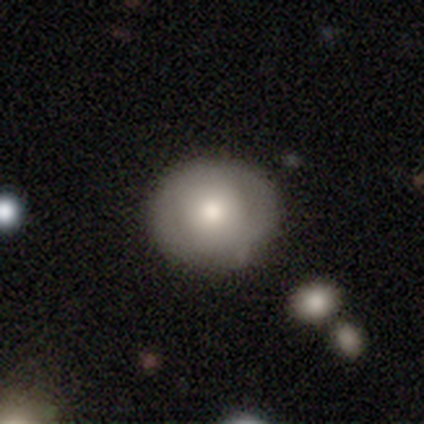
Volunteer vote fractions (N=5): Q: Smooth or featured?
A: smooth (80%); runner-up: star or artifact (20%)
Q: How rounded?
A: round (100%)
Q: Merging?
A: none (50%); runner-up: minor disturbance (25%)